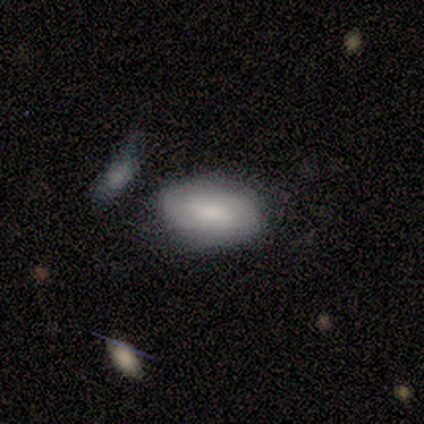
Smooth or featured?
  - featured or disk: 60% *
  - smooth: 40%
  - star or artifact: 0%
Edge-on disk?
  - no: 100% *
  - yes: 0%
Bar?
  - weak: 100% *
  - strong: 0%
  - no: 0%
Spiral arms?
  - yes: 100% *
  - no: 0%
Spiral winding?
  - medium: 67% *
  - tight: 33%
  - loose: 0%
Spiral arm count?
  - 2: 67% *
  - 1: 33%
  - 3: 0%
  - 4: 0%
  - more than 4: 0%
  - can't tell: 0%
Bulge size?
  - dominant: 33% * (tied)
  - large: 33% * (tied)
  - none: 33% * (tied)
  - moderate: 0%
  - small: 0%
Merging?
  - none: 60% *
  - major disturbance: 20%
  - merger: 20%
  - minor disturbance: 0%